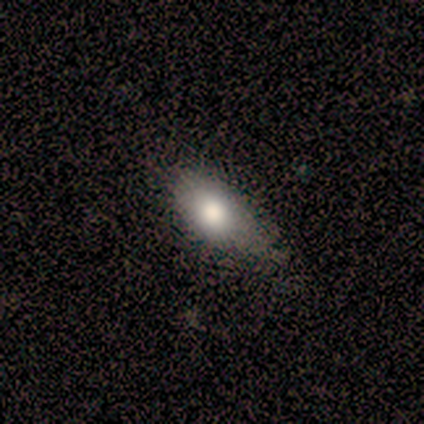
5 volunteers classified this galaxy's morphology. Smooth or featured? 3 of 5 (60%) said smooth. How rounded? 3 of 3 (100%) said in between. Merging? 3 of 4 (75%) said none.